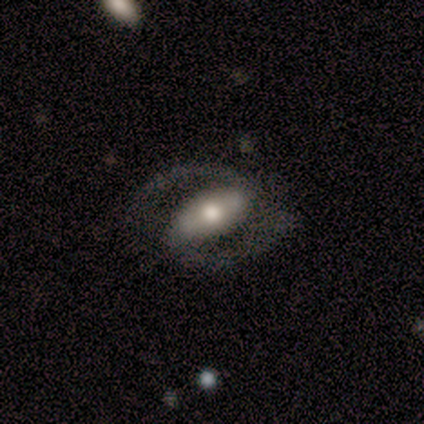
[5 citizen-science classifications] smooth-or-featured: featured or disk: 80% | smooth: 20% | star or artifact: 0%
  disk-edge-on: no: 100% | yes: 0%
    bar: strong: 50% | weak: 25% | no: 25%
    has-spiral-arms: yes: 75% | no: 25%
      spiral-winding: tight: 33% (tied) | medium: 33% (tied) | loose: 33% (tied)
      spiral-arm-count: 2: 67% | can't tell: 33% | 1: 0% | 3: 0% | 4: 0% | more than 4: 0%
    bulge-size: moderate: 50% | small: 25% | none: 25% | dominant: 0% | large: 0%
  merging: none: 60% | major disturbance: 40% | minor disturbance: 0% | merger: 0%